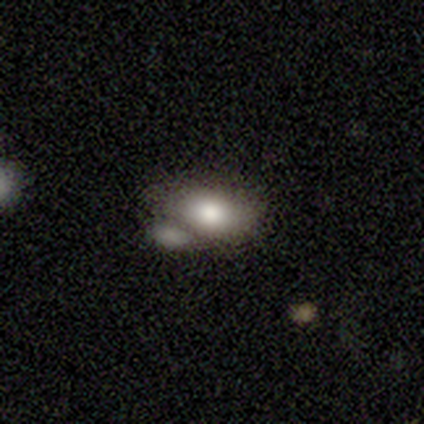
Volunteers were most divided on "merging": merger: 47%, none: 44%, minor disturbance: 6%, major disturbance: 3%. More confident: smooth or featured — smooth (79%); how rounded — in between (77%).